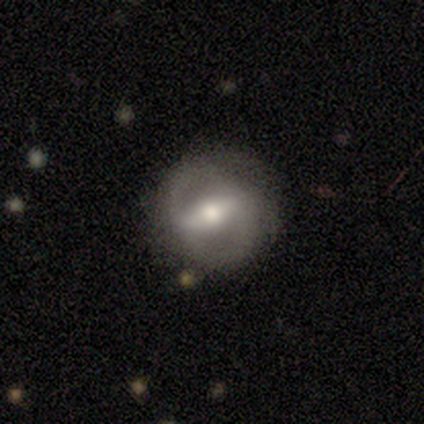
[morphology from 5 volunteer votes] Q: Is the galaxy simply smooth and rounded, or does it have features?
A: featured or disk — 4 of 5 (80%).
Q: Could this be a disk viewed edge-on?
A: no — 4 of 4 (100%).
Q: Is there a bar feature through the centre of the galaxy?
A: strong — 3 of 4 (75%).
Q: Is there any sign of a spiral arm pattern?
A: yes — 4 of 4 (100%).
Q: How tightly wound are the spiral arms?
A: medium — 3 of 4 (75%).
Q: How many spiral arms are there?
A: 2 — 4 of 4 (100%).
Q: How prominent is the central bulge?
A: moderate — 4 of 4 (100%).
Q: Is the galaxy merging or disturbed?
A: none — 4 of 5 (80%).